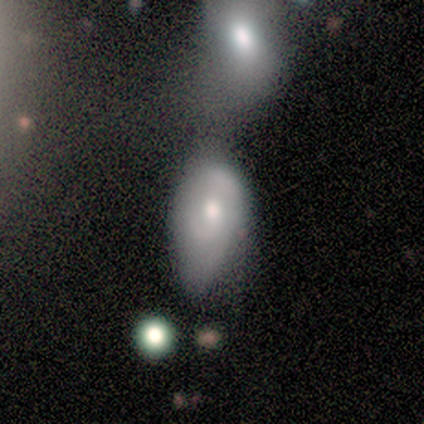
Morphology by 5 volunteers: Smooth or featured: smooth — 60% (featured or disk — 40%)
How rounded: in between — 100%
Merging: major disturbance — 60% (none — 20%)